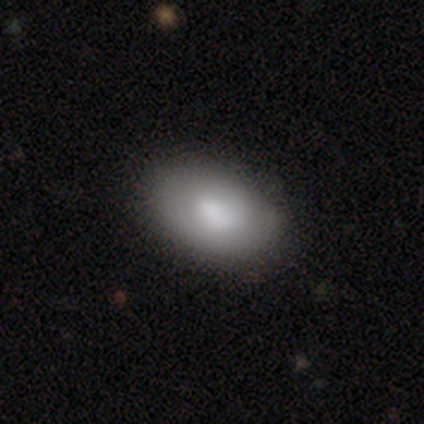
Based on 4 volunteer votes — A smooth galaxy with no disk features (50%, tied with featured or disk) that is in between round and cigar-shaped (100%). Merging: none (100%).